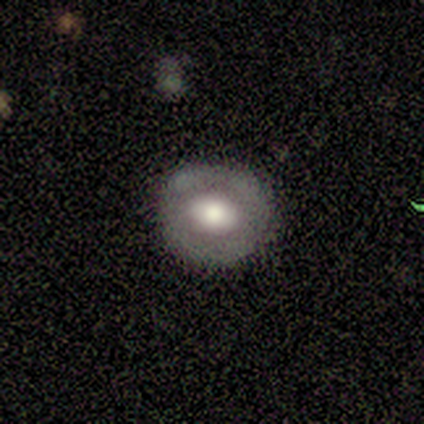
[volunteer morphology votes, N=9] A smooth galaxy with no disk features (44%, tied with featured or disk) that is round (50%, tied with in between).

Vote fractions:
- Smooth or featured? smooth: 44% (tied) / featured or disk: 44% (tied) / star or artifact: 11%
- How rounded? round: 50% (tied) / in between: 50% (tied) / cigar-shaped: 0%
- Merging? none: 75% / minor disturbance: 25% / major disturbance: 0% / merger: 0%